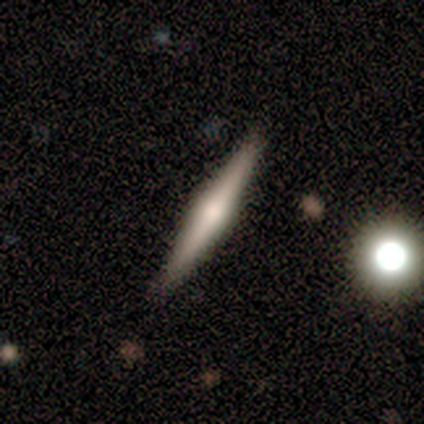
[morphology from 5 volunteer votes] A featured or disk galaxy (60%) viewed edge-on (100%) with a rounded central bulge (100%).

Vote fractions:
- Smooth or featured? featured or disk: 60% / smooth: 40% / star or artifact: 0%
- Edge-on disk? yes: 100% / no: 0%
- Edge-on bulge? rounded: 100% / boxy: 0% / none: 0%
- Merging? none: 100% / minor disturbance: 0% / major disturbance: 0% / merger: 0%